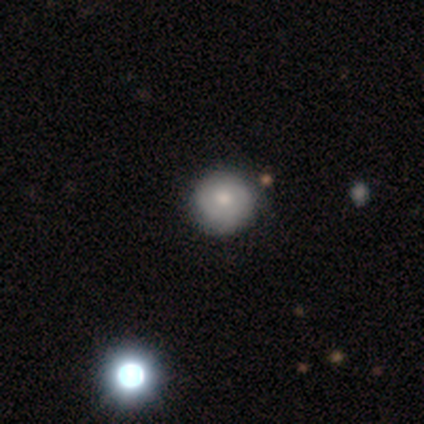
Overall: smooth (100%). How rounded: round (100%). Merging: none (67%; minor disturbance 33%).